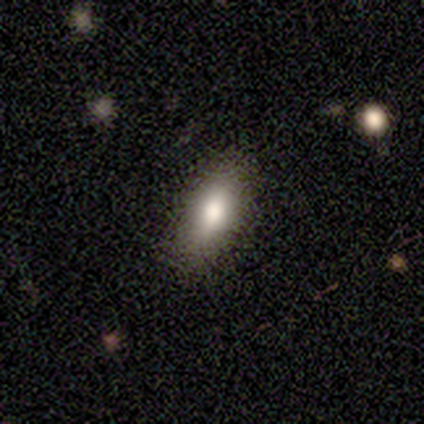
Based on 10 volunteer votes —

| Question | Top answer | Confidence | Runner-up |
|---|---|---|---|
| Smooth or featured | smooth | 90% | star or artifact (10%) |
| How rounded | in between | 67% | cigar-shaped (33%) |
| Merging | none | 78% | minor disturbance (22%) |